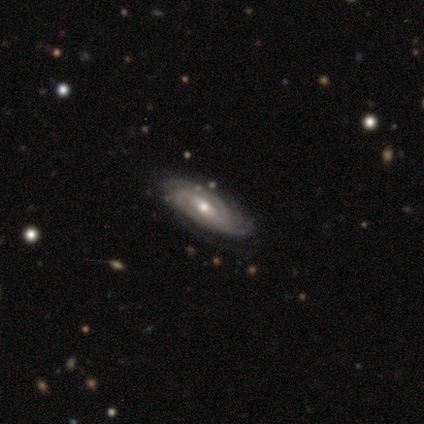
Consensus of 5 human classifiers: featured or disk 100%, smooth 0%, star or artifact 0%. Down the decision tree: edge-on disk — no (100%); bar — no (60%); spiral arms — yes (100%); spiral arm count — 3 (60%); spiral winding — tight (80%); bulge size — moderate (60%); merging — none (100%).